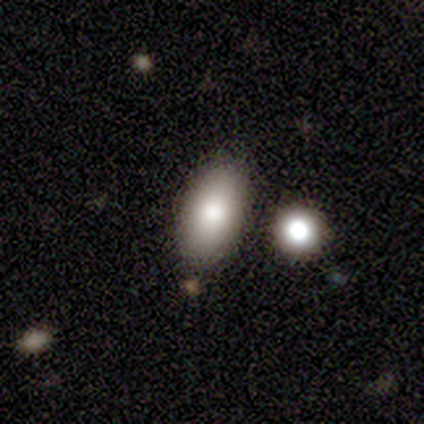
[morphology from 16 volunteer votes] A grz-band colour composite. It shows a smooth galaxy with no disk features (81%) that is in between round and cigar-shaped (100%). Merging: none (79%).